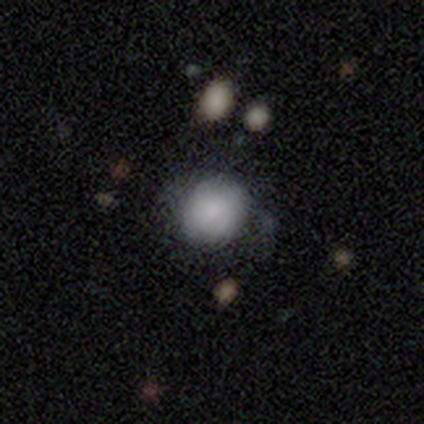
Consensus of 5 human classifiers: smooth 80%, star or artifact 20%, featured or disk 0%. Down the decision tree: how rounded — round (100%); merging — none (100%).